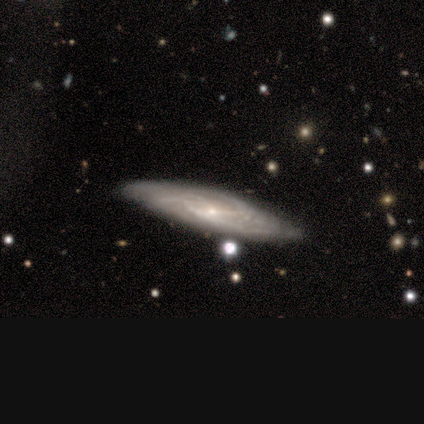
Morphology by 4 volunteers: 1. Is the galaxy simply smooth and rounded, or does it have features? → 75% featured or disk, 25% smooth, 0% star or artifact.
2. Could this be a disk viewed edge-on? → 67% yes, 33% no.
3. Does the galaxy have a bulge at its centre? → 50% none (tied), 50% rounded (tied), 0% boxy.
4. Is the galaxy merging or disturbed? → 75% none, 25% minor disturbance, 0% major disturbance, 0% merger.